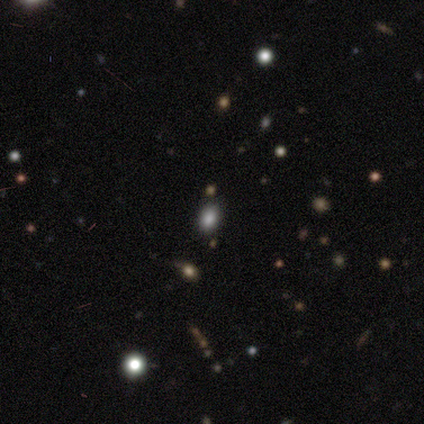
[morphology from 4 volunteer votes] Smooth or featured?
  - smooth: 75% *
  - featured or disk: 25%
  - star or artifact: 0%
How rounded?
  - in between: 67% *
  - cigar-shaped: 33%
  - round: 0%
Merging?
  - none: 50% *
  - minor disturbance: 25%
  - merger: 25%
  - major disturbance: 0%